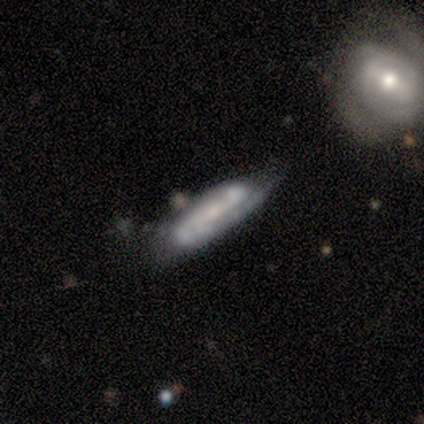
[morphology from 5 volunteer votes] A featured or disk galaxy (100%) with no bar (60%), no spiral arms (60%) and a moderate central bulge (60%). Merging: none (80%).